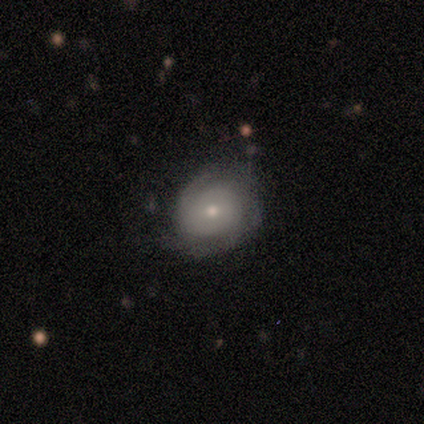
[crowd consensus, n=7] smooth_or_featured: featured or disk (p=0.86) [alt: smooth p=0.14]
disk_edge_on: no (p=1.00)
bar: no (p=0.83) [alt: weak p=0.17]
has_spiral_arms: yes (p=1.00)
spiral_winding: loose (p=0.50) [alt: tight p=0.33]
spiral_arm_count: 2 (p=0.50) [tied with: can't tell p=0.50]
bulge_size: small (p=0.67) [alt: moderate p=0.33]
merging: none (p=0.71) [alt: minor disturbance p=0.29]